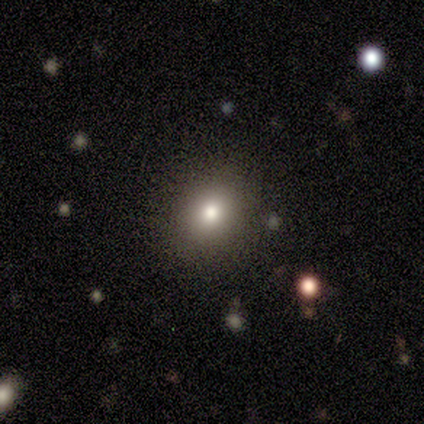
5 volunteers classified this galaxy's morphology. This appears to be a smooth galaxy with no disk features (80%) that is round (75%). Merging: none (75%).